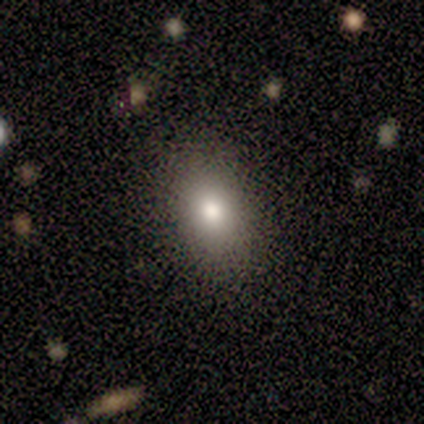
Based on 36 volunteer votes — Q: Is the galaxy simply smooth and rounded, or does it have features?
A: smooth — 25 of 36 (69%).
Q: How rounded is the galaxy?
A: in between — 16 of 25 (64%).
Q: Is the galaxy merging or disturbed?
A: none — 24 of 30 (80%).